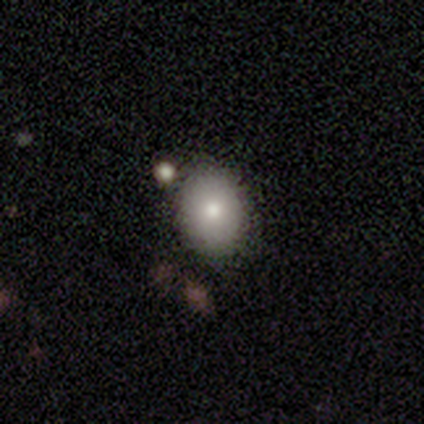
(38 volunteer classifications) Smooth or featured: smooth — 84% (featured or disk — 13%)
How rounded: in between — 66% (round — 31%)
Merging: none — 89% (minor disturbance — 5%)